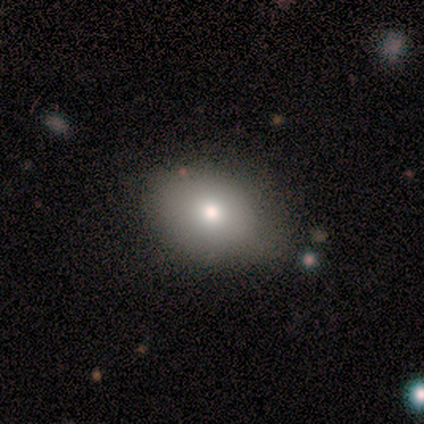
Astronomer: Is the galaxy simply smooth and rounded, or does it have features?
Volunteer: smooth — 75%.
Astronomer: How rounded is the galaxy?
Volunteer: in between — 100%.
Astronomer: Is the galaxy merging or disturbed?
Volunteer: none — 67%.